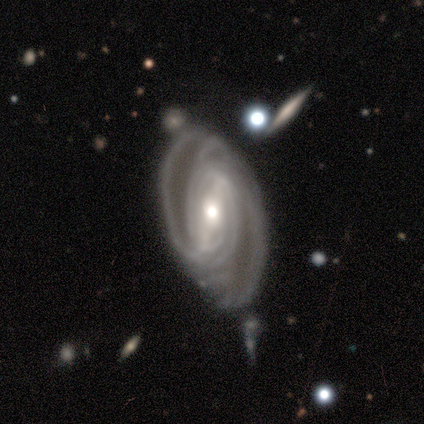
Smooth or featured? 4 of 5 (80%) said featured or disk. Edge-on disk? 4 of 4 (100%) said no. Bar? 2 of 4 (50%, tied with no) said strong. Spiral arms? 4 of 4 (100%) said yes. Spiral winding? 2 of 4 (50%) said tight. Spiral arm count? 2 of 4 (50%) said 2. Bulge size? 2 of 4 (50%) said moderate. Merging? 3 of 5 (60%) said none.